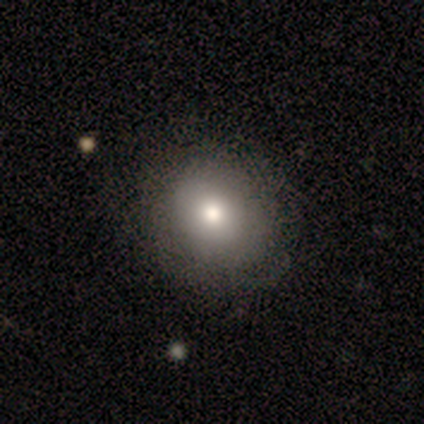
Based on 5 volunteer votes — Volunteers were most divided on "merging" (2-way tie): none: 50%, minor disturbance: 50%, major disturbance: 0%, merger: 0%. More confident: how rounded — in between (67%); smooth or featured — smooth (60%).